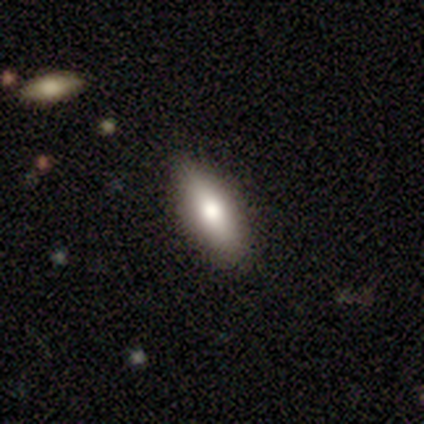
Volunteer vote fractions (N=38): A smooth galaxy with no disk features (71%) that is in between round and cigar-shaped (85%).

Vote fractions:
- Smooth or featured? smooth: 71% / featured or disk: 24% / star or artifact: 5%
- How rounded? in between: 85% / cigar-shaped: 15% / round: 0%
- Merging? none: 86% / minor disturbance: 14% / major disturbance: 0% / merger: 0%